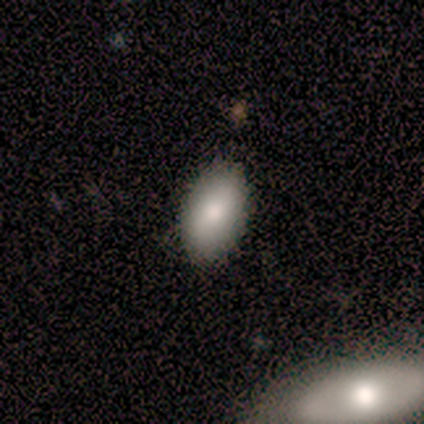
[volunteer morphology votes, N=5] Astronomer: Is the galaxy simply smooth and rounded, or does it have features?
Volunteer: smooth — 80%.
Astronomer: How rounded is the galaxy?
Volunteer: in between — 100%.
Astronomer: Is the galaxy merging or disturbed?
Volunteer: none — 75%.